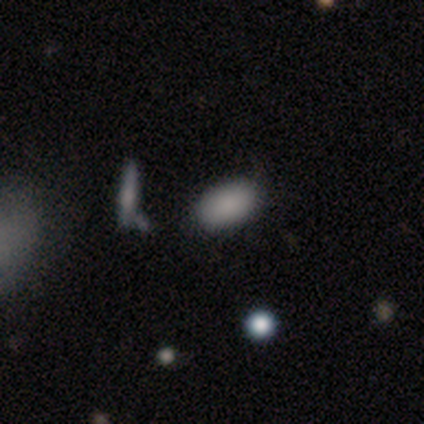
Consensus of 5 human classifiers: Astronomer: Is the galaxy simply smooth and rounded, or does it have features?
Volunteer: smooth — 80%.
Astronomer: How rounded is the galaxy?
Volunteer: in between — 100%.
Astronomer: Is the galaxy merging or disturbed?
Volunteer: none — 50%, tied with minor disturbance at 50%.